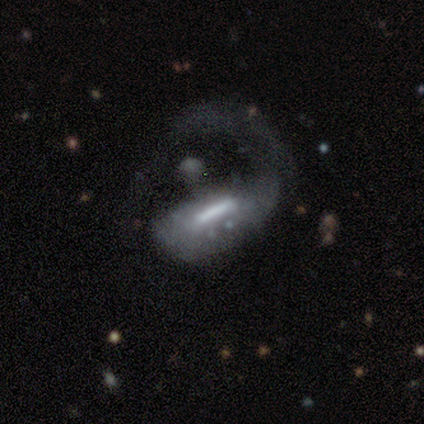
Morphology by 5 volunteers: Overall: featured or disk (80%). Edge-on disk: no (75%). Bar: strong (33%, tied with weak and no). Spiral arms: no (67%; yes 33%). Bulge size: dominant (33%, tied with large and moderate). Merging: none (40%, tied with major disturbance).